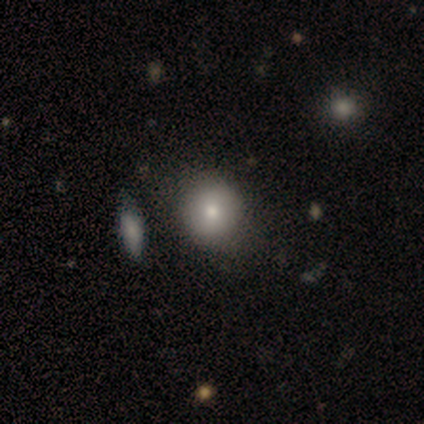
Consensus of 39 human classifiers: Smooth or featured?
  - smooth: 79% *
  - featured or disk: 21%
  - star or artifact: 0%
How rounded?
  - round: 94% *
  - in between: 6%
  - cigar-shaped: 0%
Merging?
  - none: 64% *
  - merger: 8%
  - minor disturbance: 5%
  - major disturbance: 0%